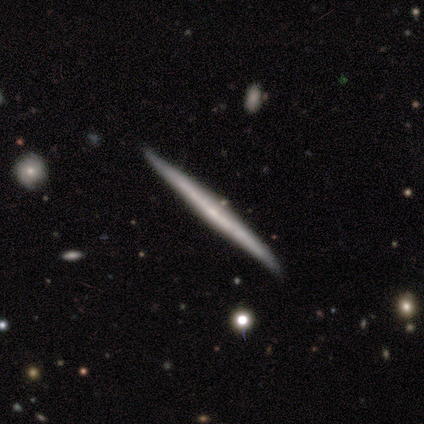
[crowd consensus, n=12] This appears to be a featured or disk galaxy (83%) viewed edge-on (100%) with no central bulge (100%). Merging: none (92%).